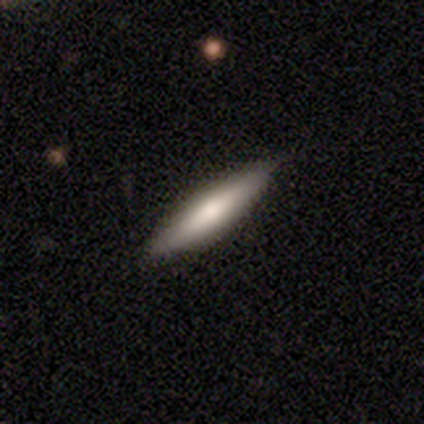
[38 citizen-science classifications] This appears to be a smooth galaxy with no disk features (63%) that is cigar-shaped (92%). Merging: none (91%).